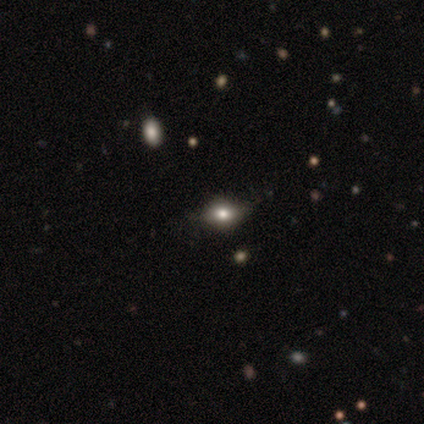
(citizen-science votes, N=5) smooth 80%, star or artifact 20%, featured or disk 0%. Down the decision tree: how rounded — round (50%, tied with in between); merging — none (100%).